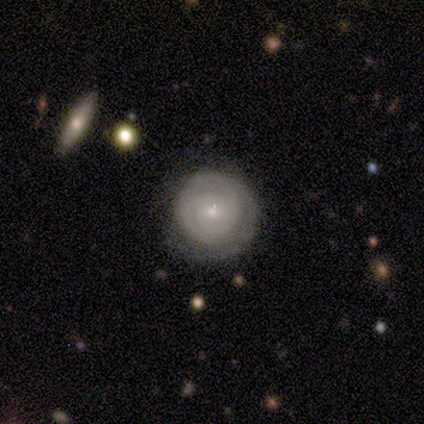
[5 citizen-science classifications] Morphology: type=featured or disk (60%); edge-on=no (100%); bar=no (67%); spiral arms=yes (100%); winding=tight (67%); arm count=2 (33%, tied with 3 and can't tell); bulge=small (100%); merging=none (75%).